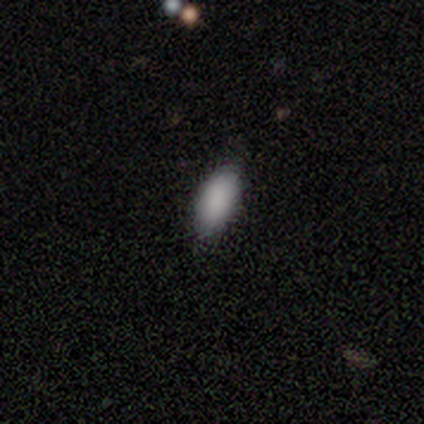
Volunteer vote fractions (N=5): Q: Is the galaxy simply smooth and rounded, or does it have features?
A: smooth — 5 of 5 (100%).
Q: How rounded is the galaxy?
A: in between — 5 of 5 (100%).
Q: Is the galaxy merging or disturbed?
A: none — 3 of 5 (60%).